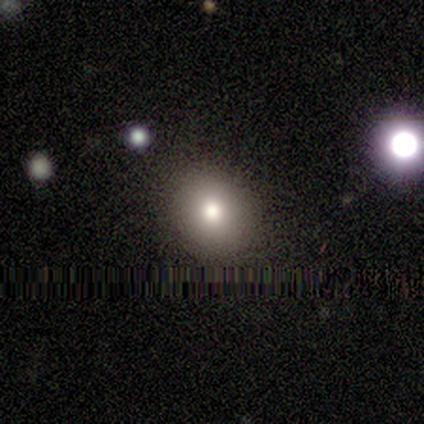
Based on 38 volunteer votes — Q: Smooth or featured?
A: smooth (79%); runner-up: star or artifact (16%)
Q: How rounded?
A: round (83%); runner-up: in between (13%)
Q: Merging?
A: none (91%); runner-up: minor disturbance (6%)